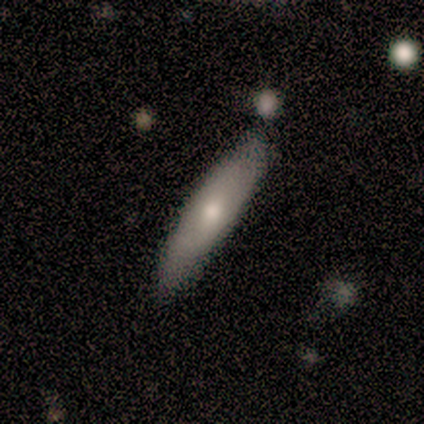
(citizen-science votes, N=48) This appears to be a smooth galaxy with no disk features (65%) that is cigar-shaped (65%). Merging: none (81%).